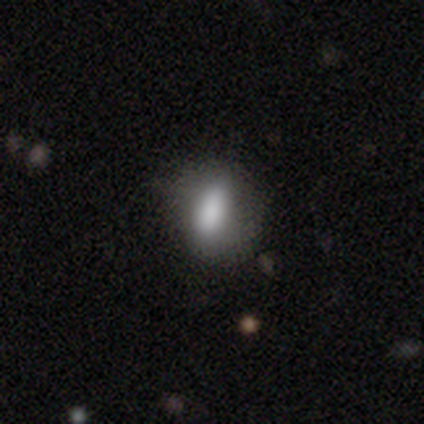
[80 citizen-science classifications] Morphology: type=smooth (81%); roundness=in between (77%); merging=none (71%).